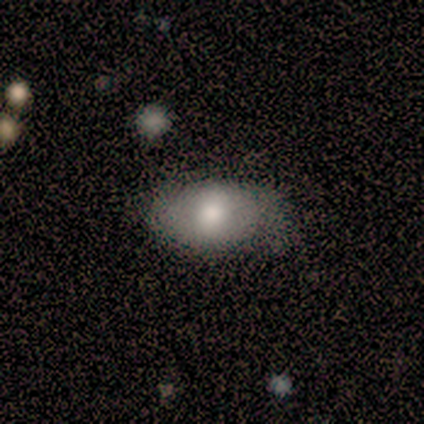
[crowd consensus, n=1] Consensus on every question: smooth or featured — smooth (100%); how rounded — in between (100%); merging — none (100%).